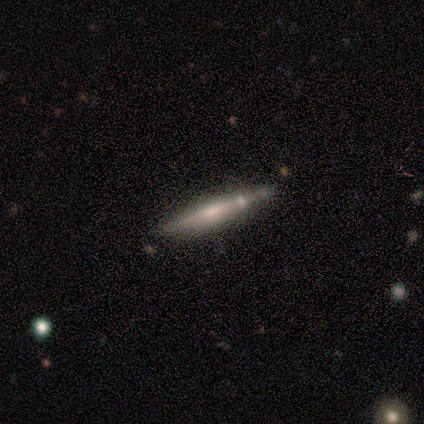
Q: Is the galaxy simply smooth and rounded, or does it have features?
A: featured or disk — 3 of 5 (60%).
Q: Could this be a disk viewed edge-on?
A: yes — 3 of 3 (100%).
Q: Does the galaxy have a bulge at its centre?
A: boxy — 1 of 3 (33%, tied with none and rounded).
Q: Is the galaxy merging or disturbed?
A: none — 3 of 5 (60%).